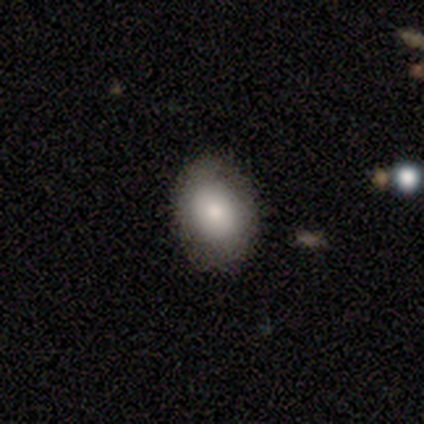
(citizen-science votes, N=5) smooth-or-featured: smooth: 100% | featured or disk: 0% | star or artifact: 0%
  how-rounded: in between: 80% | round: 20% | cigar-shaped: 0%
  merging: none: 100% | minor disturbance: 0% | major disturbance: 0% | merger: 0%